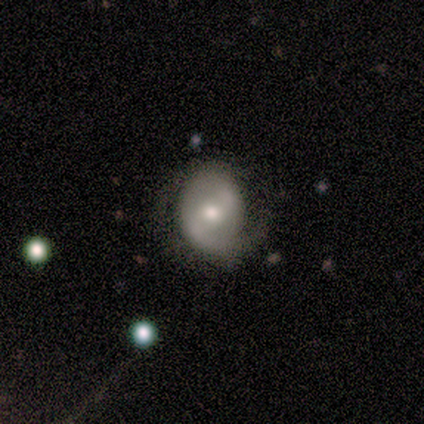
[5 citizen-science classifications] Smooth or featured: featured or disk — 60% (smooth — 40%)
Edge-on disk: no — 100%
Bar: weak — 67% (no — 33%)
Spiral arms: yes — 67% (no — 33%)
Spiral winding: tight — 50% (tied with medium — 50%)
Spiral arm count: 1 — 50% (tied with 2 — 50%)
Bulge size: small — 67% (moderate — 33%)
Merging: none — 80% (major disturbance — 20%)